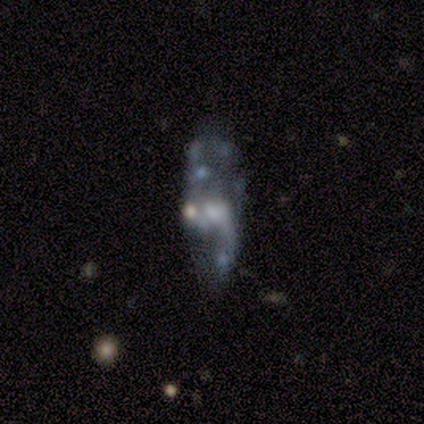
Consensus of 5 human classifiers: smooth-or-featured: featured or disk: 80% | star or artifact: 20% | smooth: 0%
  disk-edge-on: no: 100% | yes: 0%
    bar: no: 50% | strong: 25% | weak: 25%
    has-spiral-arms: yes: 50% (tied) | no: 50% (tied)
      spiral-winding: loose: 100% | tight: 0% | medium: 0%
      spiral-arm-count: 1: 100% | 2: 0% | 3: 0% | 4: 0% | more than 4: 0% | can't tell: 0%
    bulge-size: large: 25% (tied) | moderate: 25% (tied) | small: 25% (tied) | none: 25% (tied) | dominant: 0%
  merging: none: 75% | major disturbance: 25% | minor disturbance: 0% | merger: 0%